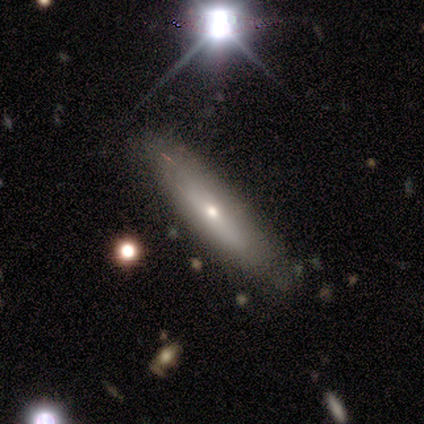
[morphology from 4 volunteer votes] type=featured or disk (75%); edge-on=yes (100%); edge-on bulge=rounded (100%); merging=none (100%).